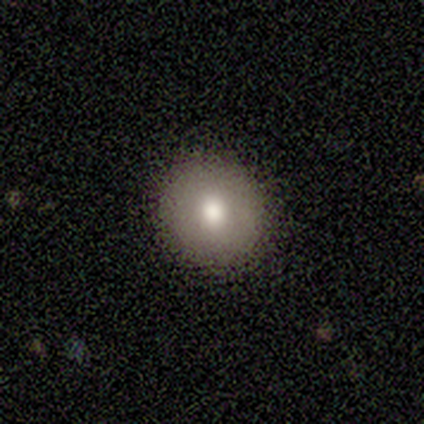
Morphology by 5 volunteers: smooth_or_featured: smooth (p=1.00)
how_rounded: round (p=1.00)
merging: none (p=1.00)